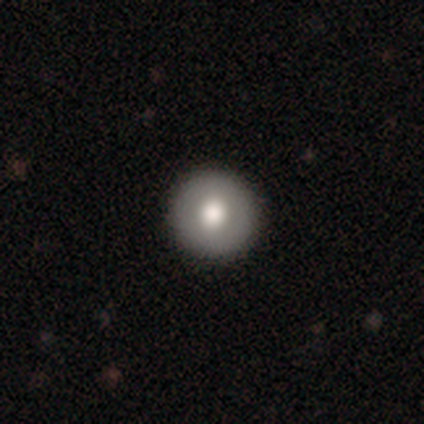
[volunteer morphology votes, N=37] Overall: smooth (73%). How rounded: round (93%). Merging: none (97%).